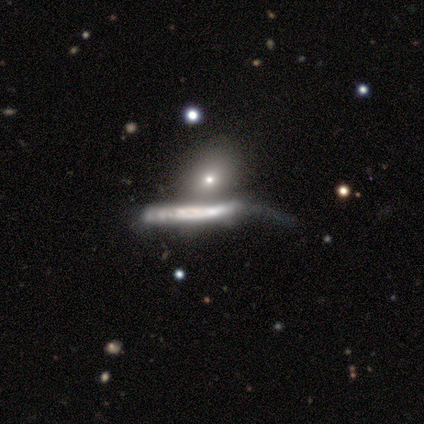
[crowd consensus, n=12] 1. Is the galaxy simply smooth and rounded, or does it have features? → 58% smooth, 42% featured or disk, 0% star or artifact.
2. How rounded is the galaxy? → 57% cigar-shaped, 43% in between, 0% round.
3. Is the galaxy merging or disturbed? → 33% major disturbance (tied), 33% merger (tied), 17% none, 17% minor disturbance.